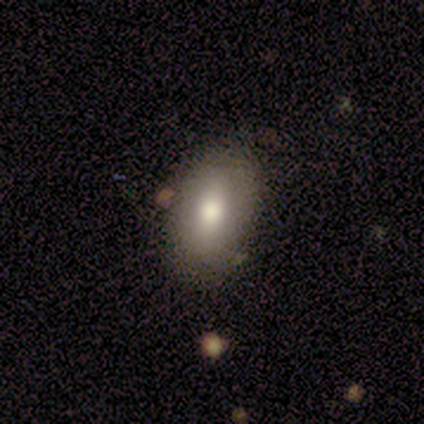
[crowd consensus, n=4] Smooth or featured? smooth (100%)
How rounded? in between (100%)
Merging? none (75%)